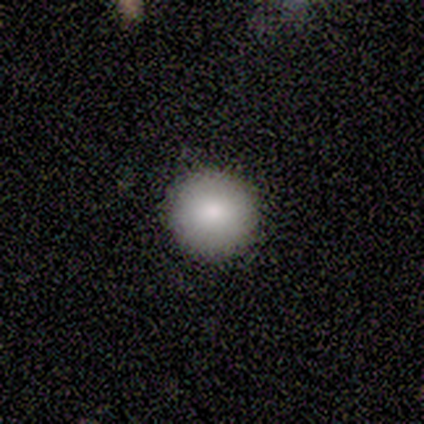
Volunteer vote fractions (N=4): Smooth or featured? smooth (100%)
How rounded? round (100%)
Merging? none (100%)